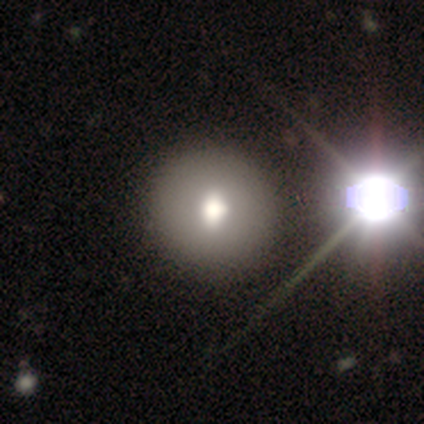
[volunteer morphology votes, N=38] Smooth or featured: smooth — 82% (star or artifact — 11%)
How rounded: round — 97% (in between — 3%)
Merging: none — 50% (minor disturbance — 3%)